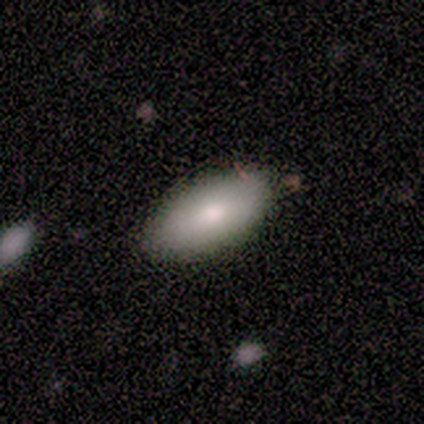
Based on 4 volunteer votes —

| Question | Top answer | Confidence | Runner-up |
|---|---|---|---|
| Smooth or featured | smooth | 100% | — |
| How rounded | in between | 75% | cigar-shaped (25%) |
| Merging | none | 75% | minor disturbance (25%) |